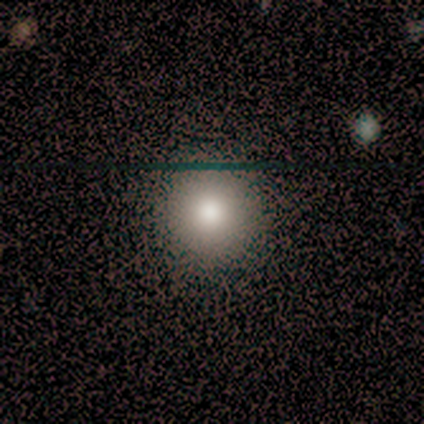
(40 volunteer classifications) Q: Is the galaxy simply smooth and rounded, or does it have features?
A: smooth — 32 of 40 (80%).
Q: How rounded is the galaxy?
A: round — 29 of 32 (91%).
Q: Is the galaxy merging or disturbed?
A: none — 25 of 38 (66%).